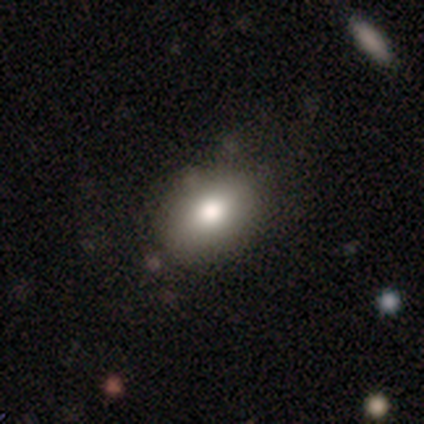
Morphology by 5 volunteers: smooth_or_featured: smooth (p=1.00)
how_rounded: in between (p=0.60) [alt: round p=0.40]
merging: none (p=0.80) [alt: minor disturbance p=0.20]